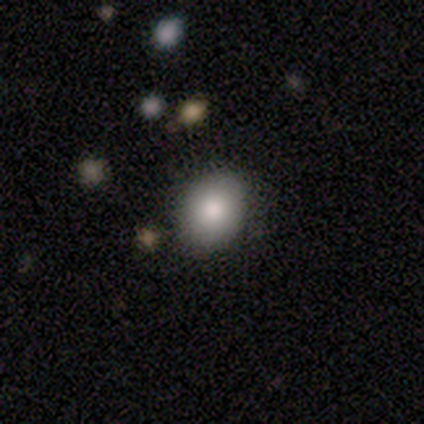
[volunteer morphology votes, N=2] A smooth galaxy with no disk features (50%, tied with featured or disk) that is in between round and cigar-shaped (100%).

Vote fractions:
- Smooth or featured? smooth: 50% (tied) / featured or disk: 50% (tied) / star or artifact: 0%
- How rounded? in between: 100% / round: 0% / cigar-shaped: 0%
- Merging? minor disturbance: 100% / none: 0% / major disturbance: 0% / merger: 0%